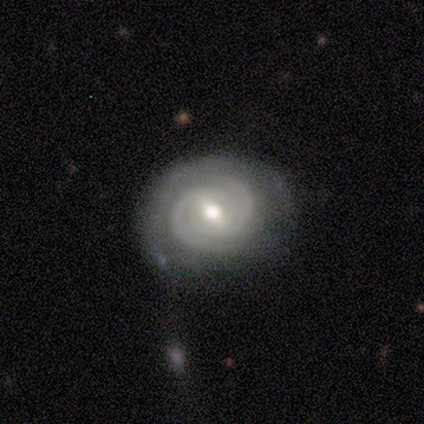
Smooth or featured? featured or disk (80%)
Edge-on disk? no (75%)
Bar? weak (67%)
Spiral arms? yes (100%)
Spiral winding? tight (67%)
Spiral arm count? 2 (100%)
Bulge size? small (67%)
Merging? none (60%)